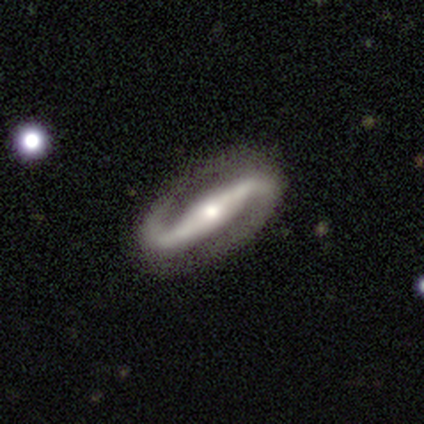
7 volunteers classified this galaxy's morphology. featured or disk 86%, star or artifact 14%, smooth 0%. Down the decision tree: edge-on disk — no (100%); bar — strong (83%); spiral arms — yes (100%); spiral arm count — 2 (100%); spiral winding — loose (67%); bulge size — moderate (50%); merging — none (100%).